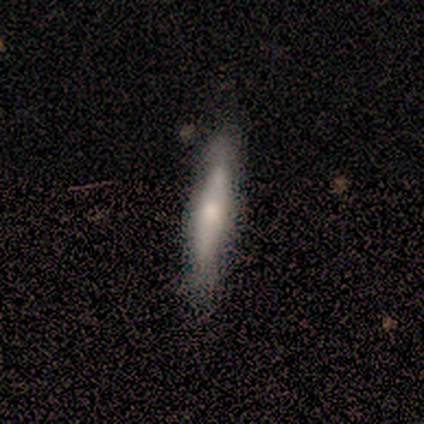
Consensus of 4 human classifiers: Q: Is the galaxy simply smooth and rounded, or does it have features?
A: smooth — 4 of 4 (100%).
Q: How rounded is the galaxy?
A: cigar-shaped — 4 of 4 (100%).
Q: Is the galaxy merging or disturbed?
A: none — 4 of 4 (100%).